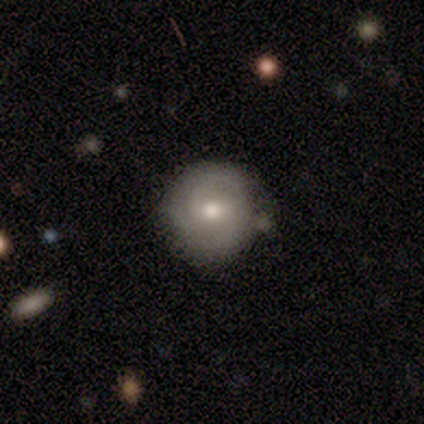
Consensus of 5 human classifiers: Overall: smooth (40%, tied with featured or disk). How rounded: round (100%). Merging: none (100%).